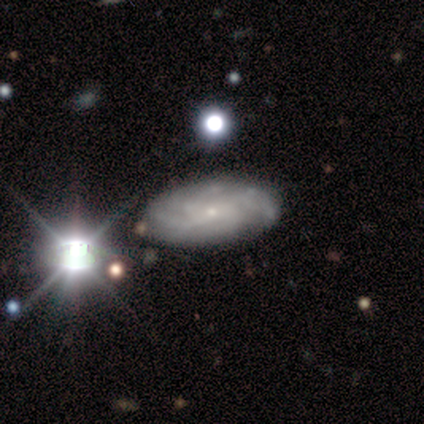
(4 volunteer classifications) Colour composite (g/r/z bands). It shows a featured or disk galaxy (75%) with no bar (100%), 4 (67%) tight (67%) spiral arms (100%) and a small central bulge (100%). Merging: none (100%).